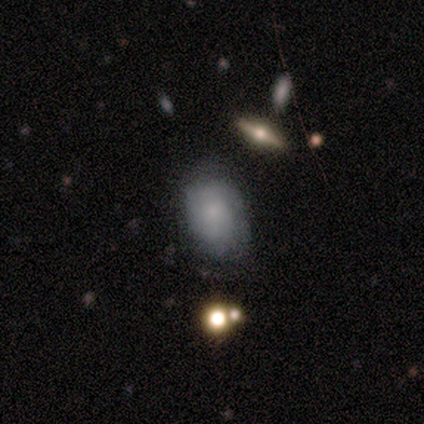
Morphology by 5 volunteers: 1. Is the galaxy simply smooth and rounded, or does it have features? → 80% smooth, 20% featured or disk, 0% star or artifact.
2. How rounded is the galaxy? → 100% in between, 0% round, 0% cigar-shaped.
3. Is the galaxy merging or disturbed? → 100% none, 0% minor disturbance, 0% major disturbance, 0% merger.